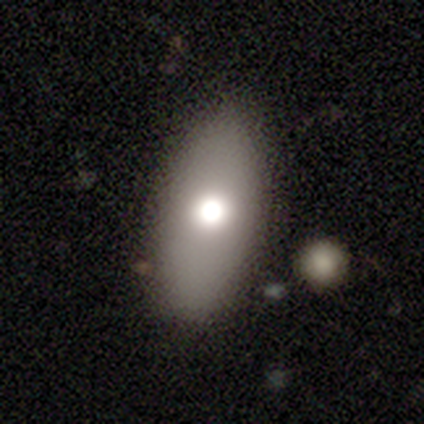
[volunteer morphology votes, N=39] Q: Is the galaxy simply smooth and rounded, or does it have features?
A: smooth — 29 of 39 (74%).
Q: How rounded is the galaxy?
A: in between — 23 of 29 (79%).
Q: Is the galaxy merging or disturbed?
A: none — 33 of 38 (87%).